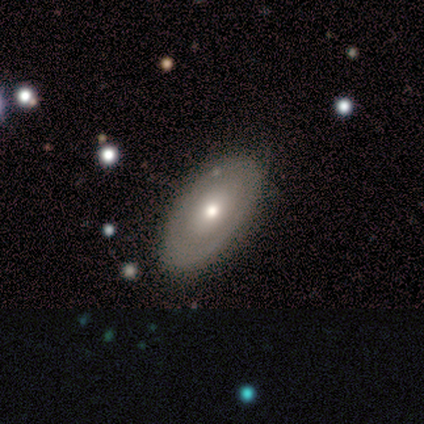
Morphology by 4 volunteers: Volunteers were most divided on "merging" (2-way tie): none: 50%, minor disturbance: 50%, major disturbance: 0%, merger: 0%. More confident: smooth or featured — featured or disk (100%); bar — no (100%); bulge size — moderate (100%); edge-on disk — no (75%); spiral arms — no (67%).